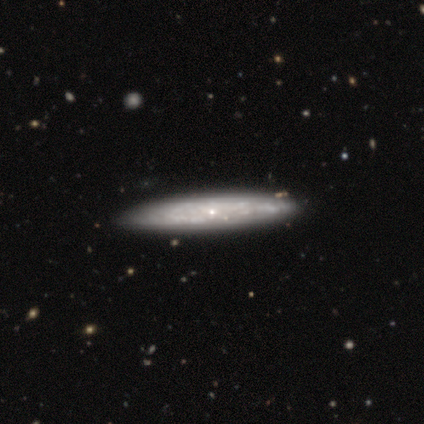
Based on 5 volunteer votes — Overall: featured or disk (80%). Edge-on disk: yes (100%). Edge-on bulge: none (50%, tied with rounded). Merging: none (80%).